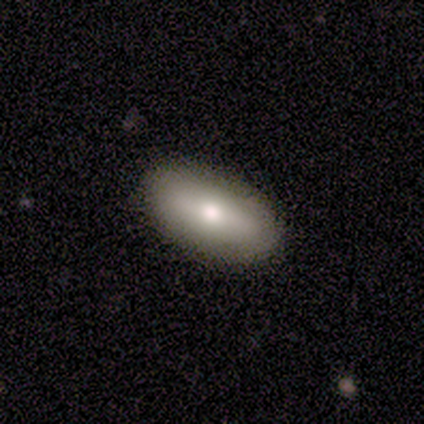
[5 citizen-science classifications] This is likely a smooth galaxy (60%). How rounded: clearly in between (100%). Merging: clearly none (100%).